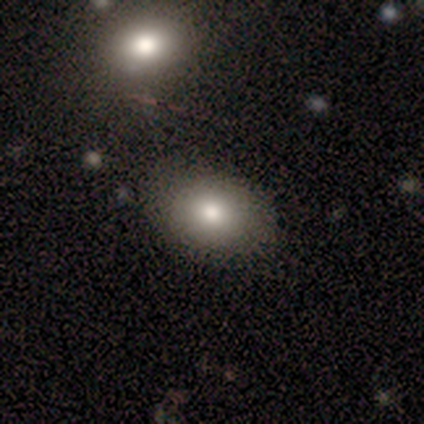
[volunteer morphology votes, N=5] Smooth or featured?
  - smooth: 40% * (tied)
  - featured or disk: 40% * (tied)
  - star or artifact: 20%
How rounded?
  - in between: 100% *
  - round: 0%
  - cigar-shaped: 0%
Merging?
  - none: 75% *
  - merger: 25%
  - minor disturbance: 0%
  - major disturbance: 0%